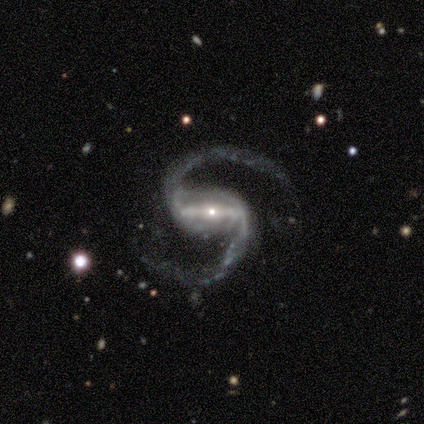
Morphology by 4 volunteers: This is clearly a featured or disk galaxy (100%). It is clearly not viewed edge-on (100%). Bar: clearly strong (100%). Spiral arm pattern: clearly yes (100%). Spiral arm count: clearly 2 (100%). Spiral winding: likely medium (75%). Central bulge: clearly small (100%). Merging: likely none (75%).